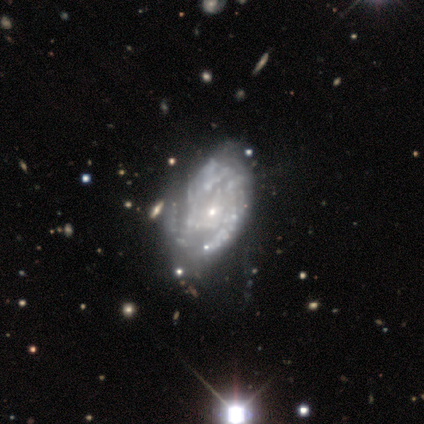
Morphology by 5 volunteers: smooth_or_featured: featured or disk (p=0.80) [alt: star or artifact p=0.20]
disk_edge_on: no (p=1.00)
bar: no (p=1.00)
has_spiral_arms: yes (p=0.50) [tied with: no p=0.50]
spiral_winding: tight (p=0.50) [tied with: medium p=0.50]
spiral_arm_count: 3 (p=1.00)
bulge_size: small (p=1.00)
merging: none (p=0.50) [alt: minor disturbance p=0.25]